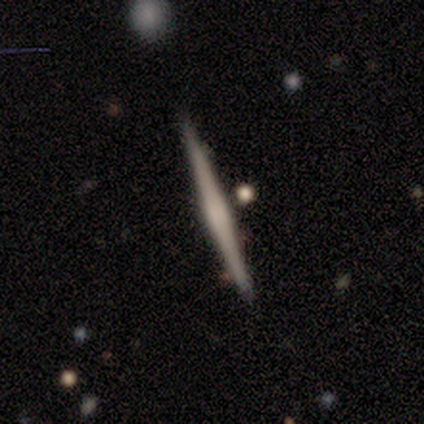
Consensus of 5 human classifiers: Overall: featured or disk (100%). Edge-on disk: yes (100%). Edge-on bulge: boxy (100%). Merging: none (80%).